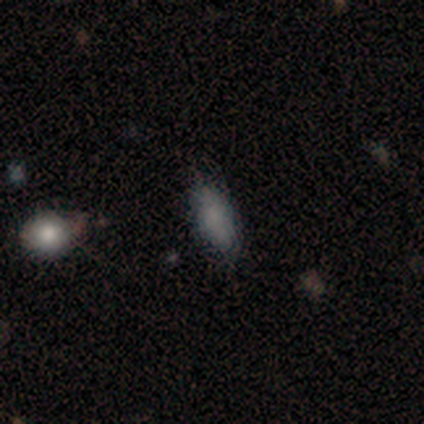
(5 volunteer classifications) A smooth galaxy with no disk features (40%, tied with featured or disk) that is in between round and cigar-shaped (100%). Merging: none (100%).